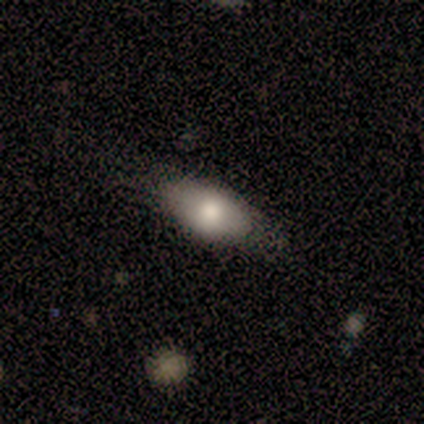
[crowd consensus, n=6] Consensus on every question: smooth or featured — smooth (100%); how rounded — in between (100%); merging — none (100%).